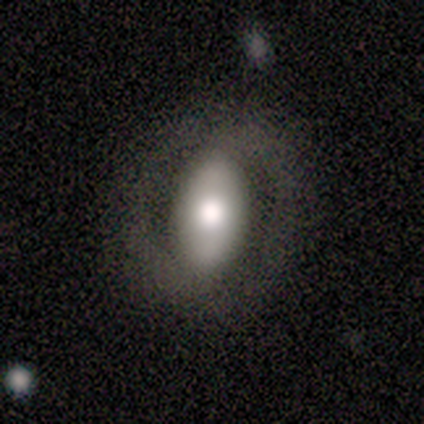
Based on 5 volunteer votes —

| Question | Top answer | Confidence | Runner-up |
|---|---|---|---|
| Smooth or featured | smooth | 80% | featured or disk (20%) |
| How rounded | in between | 100% | — |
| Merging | none | 80% | minor disturbance (20%) |